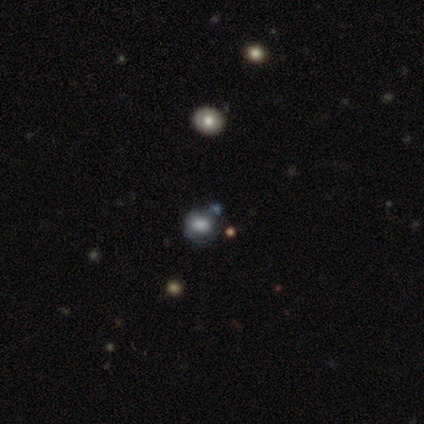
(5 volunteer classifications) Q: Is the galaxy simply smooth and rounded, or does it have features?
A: smooth — 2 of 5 (40%, tied with star or artifact).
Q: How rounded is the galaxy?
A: round — 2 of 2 (100%).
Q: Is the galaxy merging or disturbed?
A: none — 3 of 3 (100%).